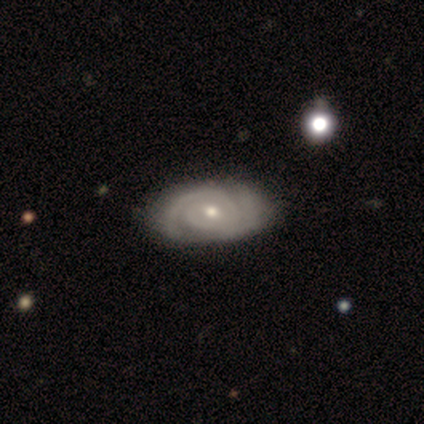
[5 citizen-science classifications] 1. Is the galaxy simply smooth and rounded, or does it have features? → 100% featured or disk, 0% smooth, 0% star or artifact.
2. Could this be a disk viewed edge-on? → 100% no, 0% yes.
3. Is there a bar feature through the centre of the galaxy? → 60% no, 40% weak, 0% strong.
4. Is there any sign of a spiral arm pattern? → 100% yes, 0% no.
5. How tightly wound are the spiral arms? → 80% tight, 20% medium, 0% loose.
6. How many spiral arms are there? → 100% 2, 0% 1, 0% 3, 0% 4, 0% more than 4, 0% can't tell.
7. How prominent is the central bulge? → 60% moderate, 40% small, 0% dominant, 0% large, 0% none.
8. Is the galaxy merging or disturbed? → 60% none, 20% minor disturbance, 20% merger, 0% major disturbance.